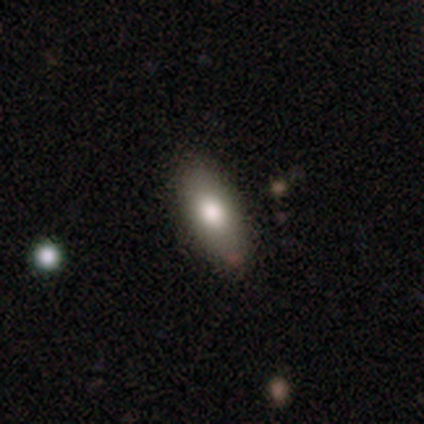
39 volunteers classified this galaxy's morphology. This is clearly a smooth galaxy (82%). How rounded: clearly in between (81%). Merging: clearly none (92%).